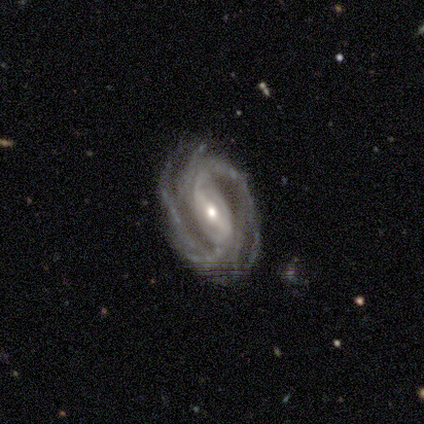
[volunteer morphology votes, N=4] smooth-or-featured: featured or disk: 100% | smooth: 0% | star or artifact: 0%
  disk-edge-on: no: 100% | yes: 0%
    bar: strong: 75% | weak: 25% | no: 0%
    has-spiral-arms: yes: 100% | no: 0%
      spiral-winding: tight: 50% (tied) | medium: 50% (tied) | loose: 0%
      spiral-arm-count: 2: 75% | 3: 25% | 1: 0% | 4: 0% | more than 4: 0% | can't tell: 0%
    bulge-size: moderate: 75% | small: 25% | dominant: 0% | large: 0% | none: 0%
  merging: none: 75% | major disturbance: 25% | minor disturbance: 0% | merger: 0%